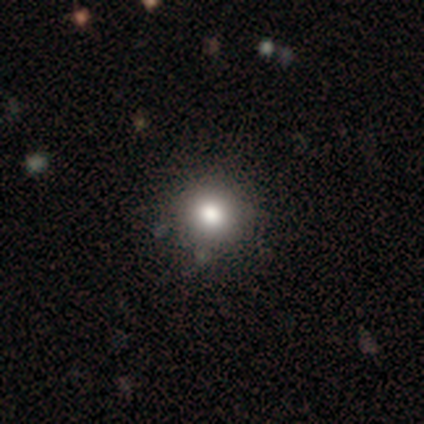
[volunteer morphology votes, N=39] Smooth or featured: smooth — 74% (star or artifact — 23%)
How rounded: round — 97% (in between — 3%)
Merging: none — 93% (minor disturbance — 7%)